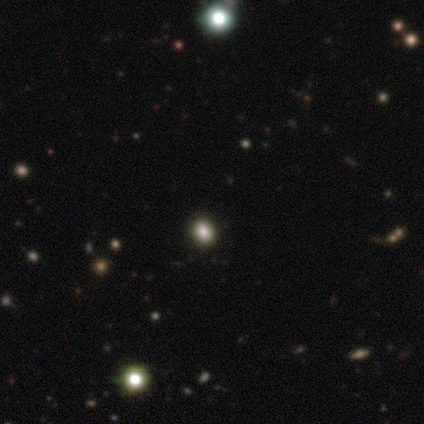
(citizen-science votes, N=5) smooth-or-featured: smooth: 60% | star or artifact: 40% | featured or disk: 0%
  how-rounded: in between: 67% | round: 33% | cigar-shaped: 0%
  merging: none: 100% | minor disturbance: 0% | major disturbance: 0% | merger: 0%